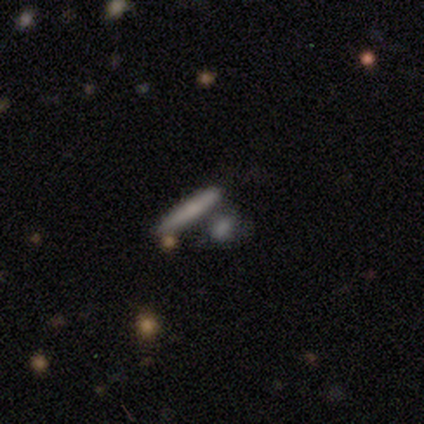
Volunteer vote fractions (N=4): A smooth galaxy with no disk features (75%) that is cigar-shaped (67%).

Vote fractions:
- Smooth or featured? smooth: 75% / featured or disk: 25% / star or artifact: 0%
- How rounded? cigar-shaped: 67% / in between: 33% / round: 0%
- Merging? merger: 75% / none: 25% / minor disturbance: 0% / major disturbance: 0%